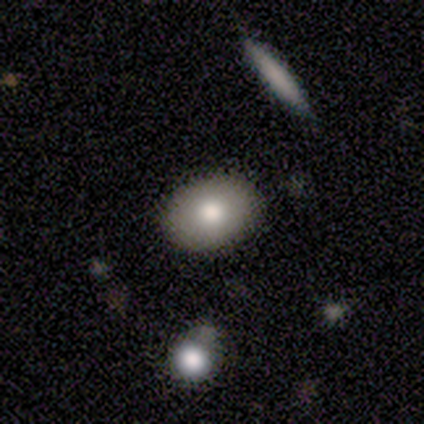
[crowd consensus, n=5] This is clearly a smooth galaxy (100%). How rounded: clearly in between (80%). Merging: clearly none (100%).